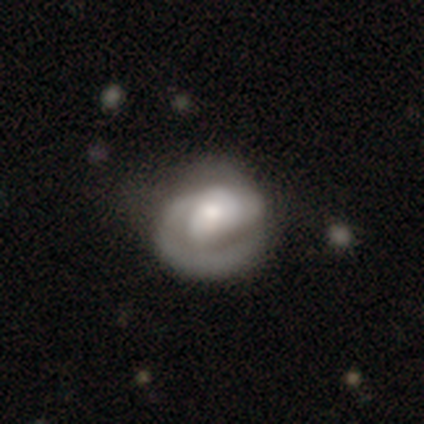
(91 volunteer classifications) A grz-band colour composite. It shows a featured or disk galaxy (75%) with no bar (71%), 1 (61%) tight (54%) spiral arms (82%) and a moderate central bulge (48%). Merging: none (44%).